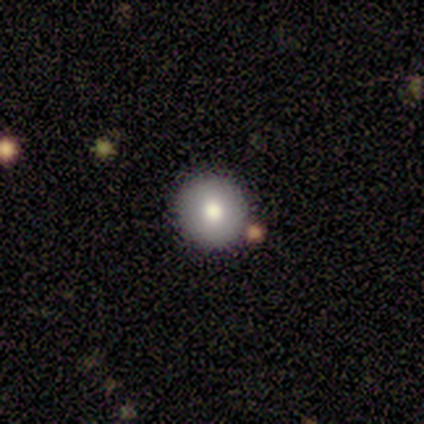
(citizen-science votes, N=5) This is clearly a smooth galaxy (80%). How rounded: clearly round (100%). Merging: clearly none (100%).